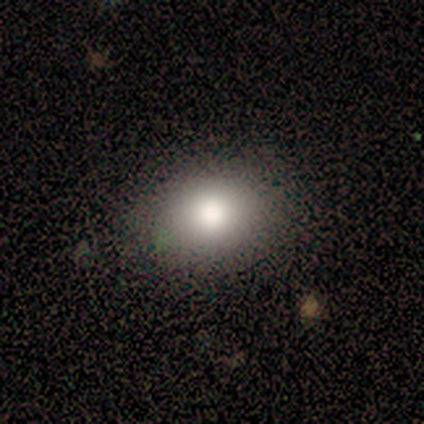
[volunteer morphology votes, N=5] smooth_or_featured: smooth (p=0.80) [alt: star or artifact p=0.20]
how_rounded: round (p=0.75) [alt: in between p=0.25]
merging: none (p=1.00)